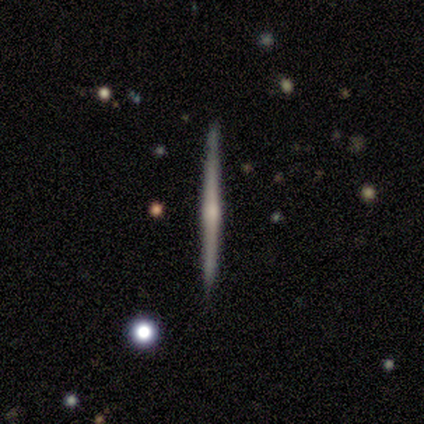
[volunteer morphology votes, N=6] featured or disk 67%, smooth 17%, star or artifact 17%. Down the decision tree: edge-on disk — yes (100%); edge-on bulge — rounded (75%); merging — none (100%).